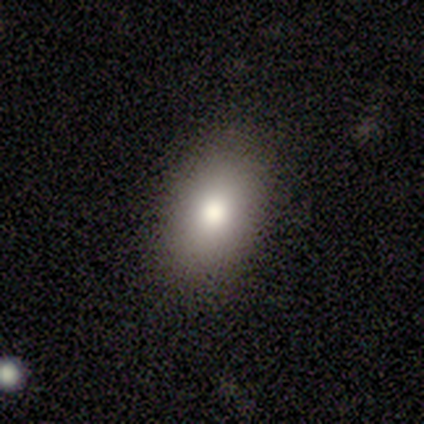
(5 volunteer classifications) smooth-or-featured: smooth: 80% | featured or disk: 20% | star or artifact: 0%
  how-rounded: in between: 75% | round: 25% | cigar-shaped: 0%
  merging: none: 100% | minor disturbance: 0% | major disturbance: 0% | merger: 0%